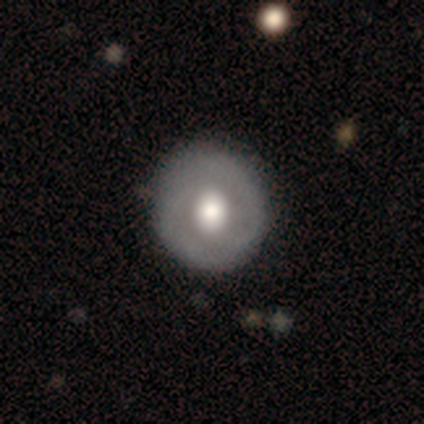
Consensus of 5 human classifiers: This is clearly a featured or disk galaxy (80%). It is clearly not viewed edge-on (100%). Bar: clearly no (100%). Spiral arm pattern: likely no (75%). Central bulge: clearly moderate (100%). Merging: clearly none (80%).